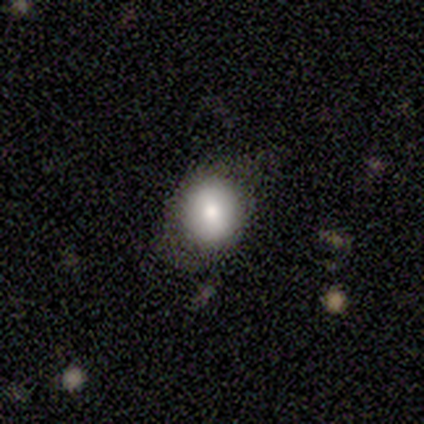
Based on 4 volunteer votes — Smooth or featured?
  - smooth: 75% *
  - star or artifact: 25%
  - featured or disk: 0%
How rounded?
  - round: 100% *
  - in between: 0%
  - cigar-shaped: 0%
Merging?
  - none: 67% *
  - minor disturbance: 33%
  - major disturbance: 0%
  - merger: 0%